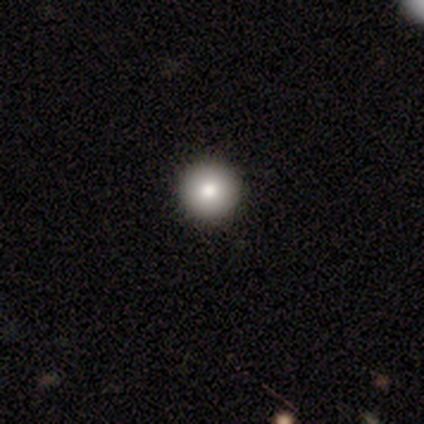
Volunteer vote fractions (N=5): Smooth or featured?
  - smooth: 80% *
  - star or artifact: 20%
  - featured or disk: 0%
How rounded?
  - round: 100% *
  - in between: 0%
  - cigar-shaped: 0%
Merging?
  - none: 100% *
  - minor disturbance: 0%
  - major disturbance: 0%
  - merger: 0%